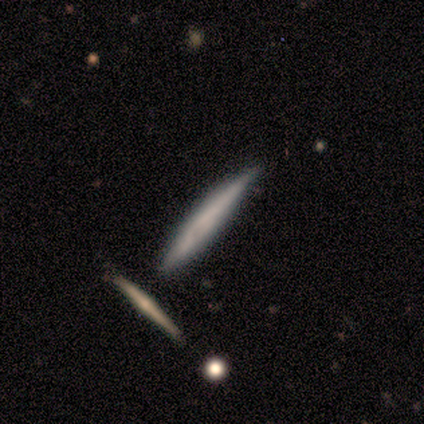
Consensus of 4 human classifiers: Smooth or featured?
  - smooth: 50% * (tied)
  - star or artifact: 50% * (tied)
  - featured or disk: 0%
How rounded?
  - cigar-shaped: 100% *
  - round: 0%
  - in between: 0%
Merging?
  - minor disturbance: 50% * (tied)
  - merger: 50% * (tied)
  - none: 0%
  - major disturbance: 0%